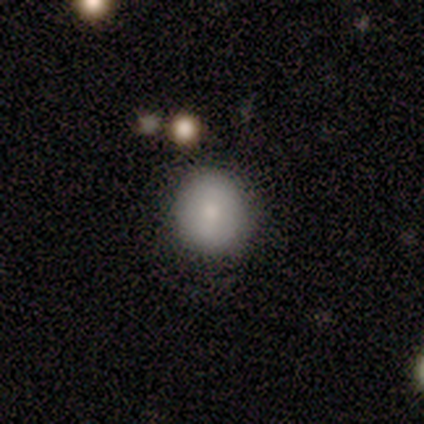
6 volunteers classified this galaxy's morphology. smooth_or_featured: smooth (p=1.00)
how_rounded: round (p=1.00)
merging: none (p=0.67) [alt: minor disturbance p=0.33]